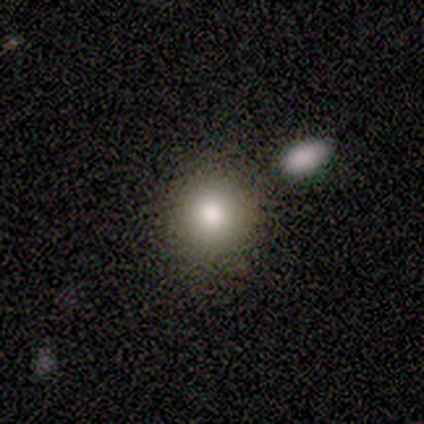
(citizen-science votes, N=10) Smooth or featured? smooth (60%)
How rounded? round (100%)
Merging? none (86%)